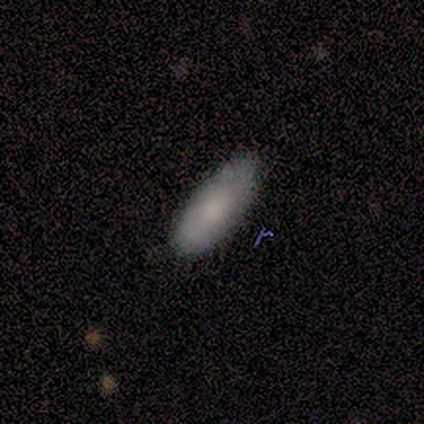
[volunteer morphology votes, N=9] Overall: smooth (89%). How rounded: in between (62%; cigar-shaped 38%). Merging: none (88%).